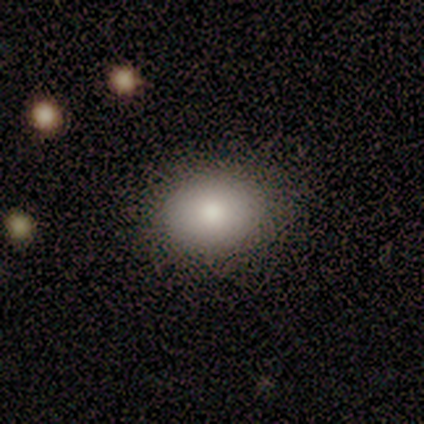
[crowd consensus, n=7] A smooth galaxy with no disk features (71%) that is in between round and cigar-shaped (60%).

Vote fractions:
- Smooth or featured? smooth: 71% / star or artifact: 29% / featured or disk: 0%
- How rounded? in between: 60% / round: 40% / cigar-shaped: 0%
- Merging? none: 100% / minor disturbance: 0% / major disturbance: 0% / merger: 0%